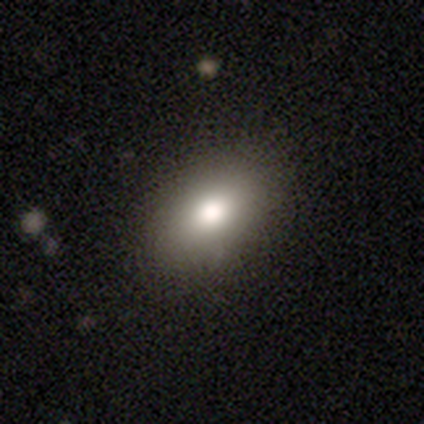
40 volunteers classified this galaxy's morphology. Overall: smooth (80%). How rounded: in between (91%). Merging: none (89%).